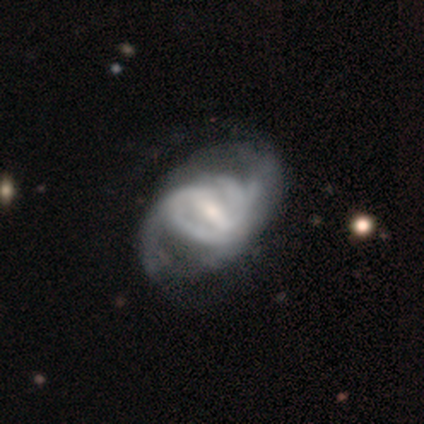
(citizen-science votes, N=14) Smooth or featured? featured or disk (79%)
Edge-on disk? no (100%)
Bar? strong (55%)
Spiral arms? yes (91%)
Spiral winding? medium (70%)
Spiral arm count? 2 (60%)
Bulge size? moderate (64%)
Merging? none (54%)